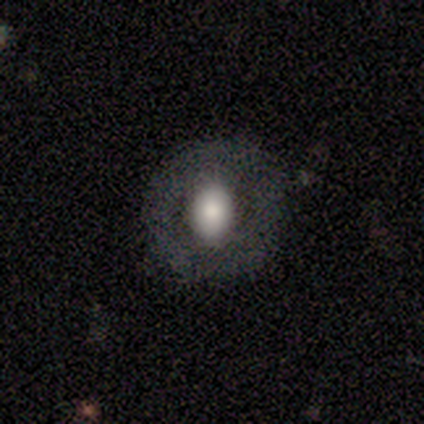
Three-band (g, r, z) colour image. It shows a smooth galaxy with no disk features (50%, tied with featured or disk) that is round (50%, tied with in between). Merging: none (100%).